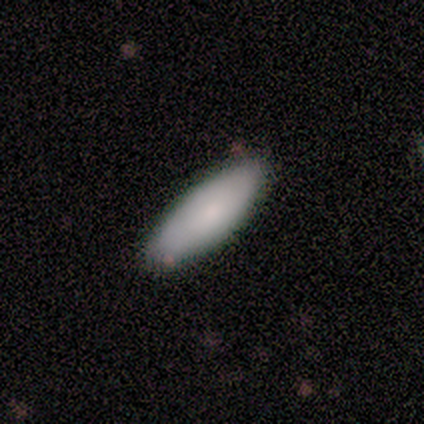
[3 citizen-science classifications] Q: Smooth or featured?
A: smooth (100%)
Q: How rounded?
A: in between (67%); runner-up: cigar-shaped (33%)
Q: Merging?
A: none (100%)